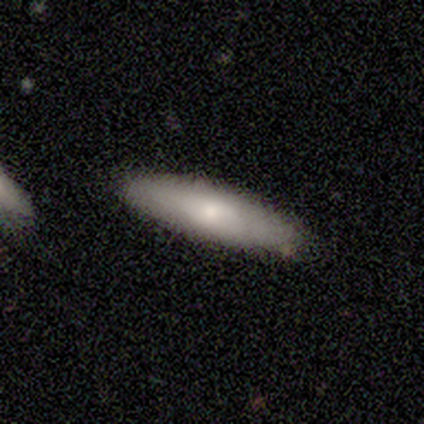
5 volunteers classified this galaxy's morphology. Smooth or featured? smooth (80%)
How rounded? cigar-shaped (100%)
Merging? none (100%)